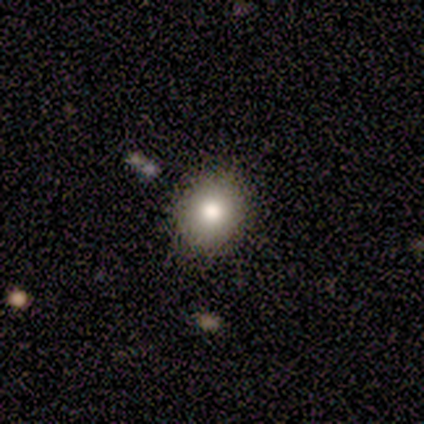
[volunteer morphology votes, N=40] smooth-or-featured: smooth: 82% | star or artifact: 10% | featured or disk: 8%
  how-rounded: round: 61% | in between: 39% | cigar-shaped: 0%
  merging: none: 86% | minor disturbance: 6% | merger: 6% | major disturbance: 3%